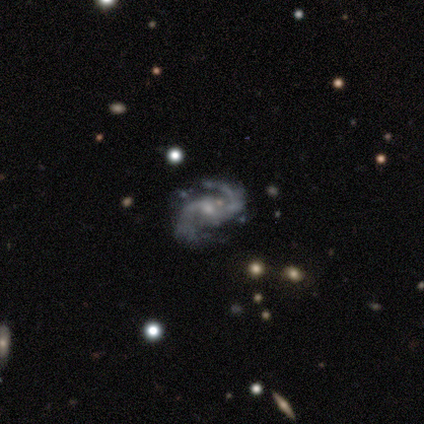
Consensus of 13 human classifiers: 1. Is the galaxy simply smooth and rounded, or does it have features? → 100% featured or disk, 0% smooth, 0% star or artifact.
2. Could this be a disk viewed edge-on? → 100% no, 0% yes.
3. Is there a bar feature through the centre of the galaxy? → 62% weak, 38% no, 0% strong.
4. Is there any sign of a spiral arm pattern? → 92% yes, 8% no.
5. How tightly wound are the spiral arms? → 58% medium, 42% loose, 0% tight.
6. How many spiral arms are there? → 100% 2, 0% 1, 0% 3, 0% 4, 0% more than 4, 0% can't tell.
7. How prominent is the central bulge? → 69% small, 15% none, 8% dominant, 8% moderate, 0% large.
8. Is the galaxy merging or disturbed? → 69% none, 23% minor disturbance, 8% major disturbance, 0% merger.